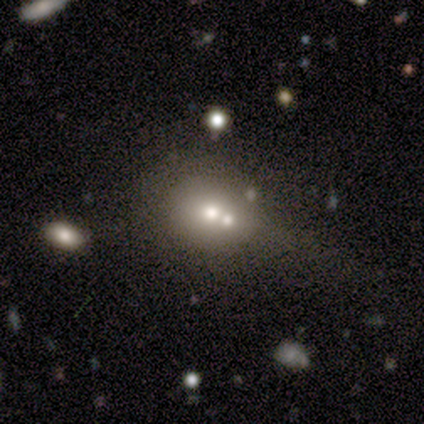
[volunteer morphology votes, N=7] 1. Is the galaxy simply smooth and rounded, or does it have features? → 100% smooth, 0% featured or disk, 0% star or artifact.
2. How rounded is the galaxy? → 71% round, 29% in between, 0% cigar-shaped.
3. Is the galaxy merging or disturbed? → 57% none, 43% merger, 0% minor disturbance, 0% major disturbance.